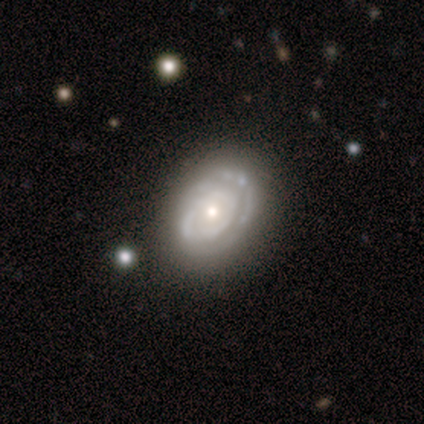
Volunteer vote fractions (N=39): Volunteers were most divided on "bulge size": moderate: 54%, small: 34%, large: 6%, dominant: 3%, none: 3%. Remaining: smooth or featured — featured or disk (95%); edge-on disk — no (95%); bar — no (86%); spiral arms — yes (83%); merging — none (79%); spiral winding — tight (79%); spiral arm count — can't tell (45%).